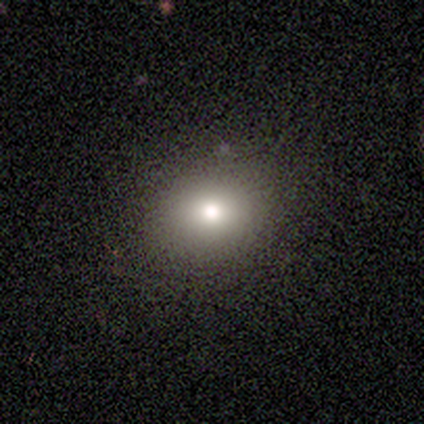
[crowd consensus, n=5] Overall: smooth (80%). How rounded: round (75%). Merging: none (75%).